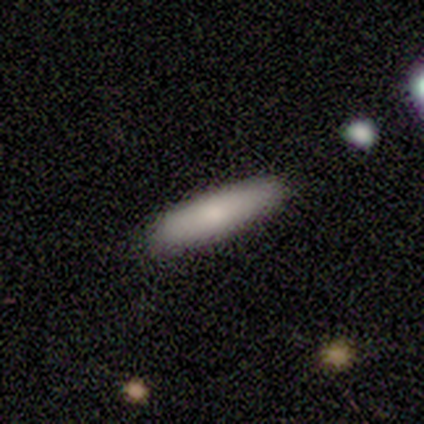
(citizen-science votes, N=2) This is clearly a smooth galaxy (100%). How rounded: clearly cigar-shaped (100%). Merging: clearly none (100%).